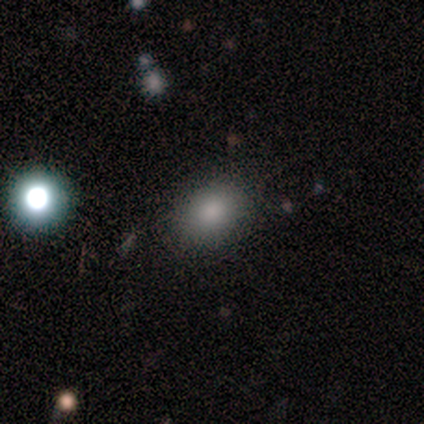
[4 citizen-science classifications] This appears to be a smooth galaxy with no disk features (50%) that is in between round and cigar-shaped (100%). Merging: minor disturbance (67%).